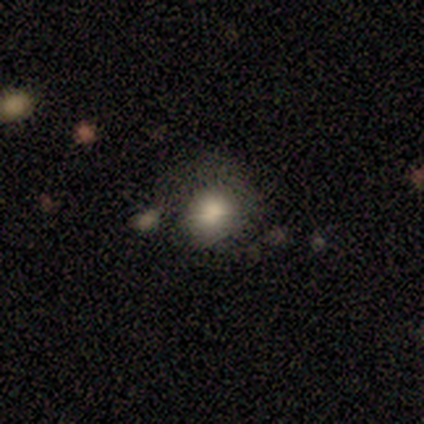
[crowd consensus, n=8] smooth 88%, star or artifact 12%, featured or disk 0%. Down the decision tree: how rounded — round (100%); merging — none (86%).